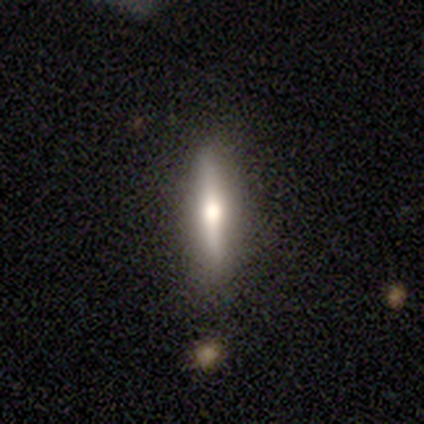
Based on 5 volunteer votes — Smooth or featured? 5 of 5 (100%) said featured or disk. Edge-on disk? 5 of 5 (100%) said yes. Edge-on bulge? 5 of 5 (100%) said rounded. Merging? 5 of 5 (100%) said none.